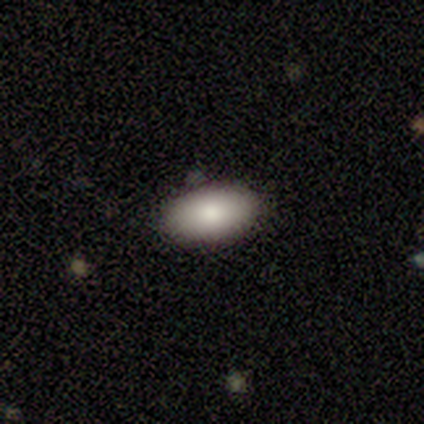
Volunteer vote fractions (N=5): Smooth or featured?
  - smooth: 100% *
  - featured or disk: 0%
  - star or artifact: 0%
How rounded?
  - in between: 100% *
  - round: 0%
  - cigar-shaped: 0%
Merging?
  - none: 100% *
  - minor disturbance: 0%
  - major disturbance: 0%
  - merger: 0%